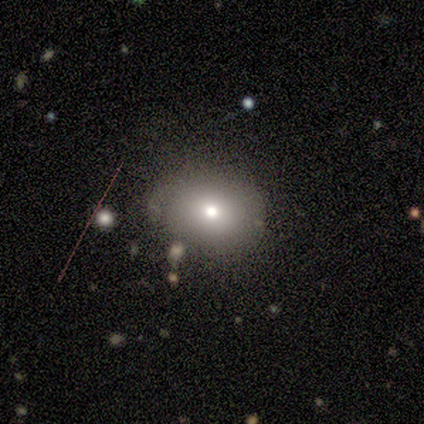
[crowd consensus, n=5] This appears to be a smooth galaxy with no disk features (40%, tied with star or artifact) that is round (50%, tied with in between). Merging: none (100%).